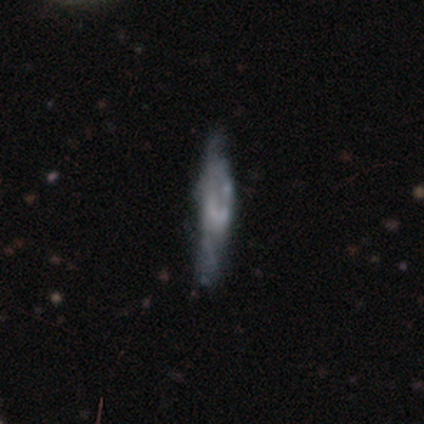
This appears to be a featured or disk galaxy (80%) viewed edge-on (75%) with no central bulge (67%). Merging: none (80%).